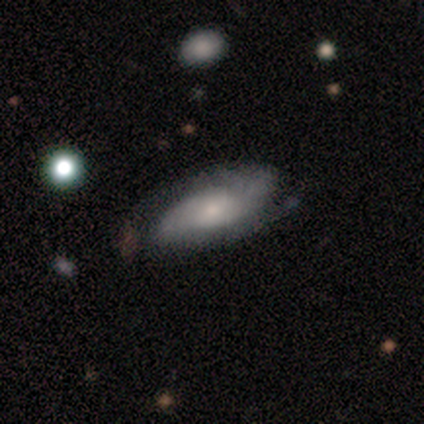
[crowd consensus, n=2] Volunteers were most divided on "smooth or featured" (2-way tie): smooth: 50%, featured or disk: 50%, star or artifact: 0%. More confident: how rounded — in between (100%); merging — none (100%).